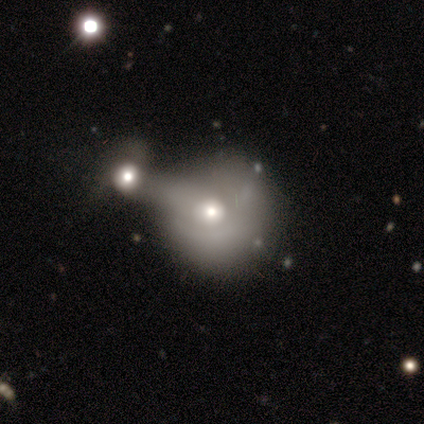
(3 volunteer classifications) smooth-or-featured: smooth: 67% | featured or disk: 33% | star or artifact: 0%
  how-rounded: round: 100% | in between: 0% | cigar-shaped: 0%
  merging: merger: 100% | none: 0% | minor disturbance: 0% | major disturbance: 0%